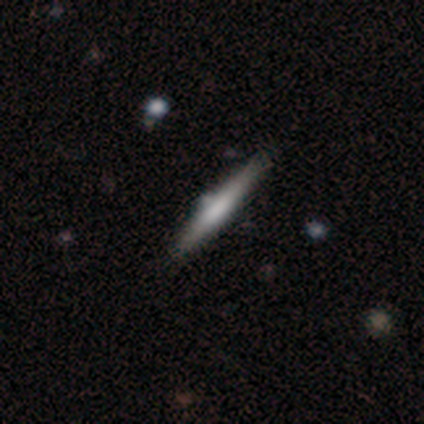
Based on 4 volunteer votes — smooth_or_featured: featured or disk (p=0.50) [alt: smooth p=0.25]
disk_edge_on: yes (p=1.00)
edge_on_bulge: none (p=0.50) [tied with: rounded p=0.50]
merging: none (p=0.67) [alt: minor disturbance p=0.33]